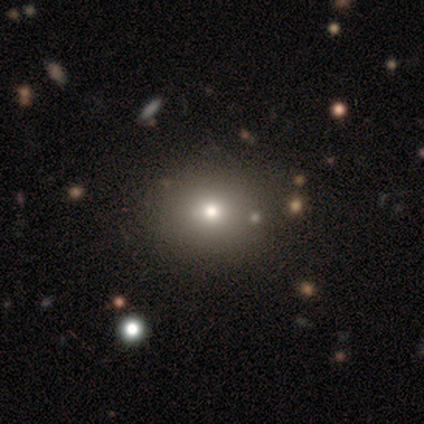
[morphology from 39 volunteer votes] Smooth or featured?
  - smooth: 74% *
  - star or artifact: 18%
  - featured or disk: 8%
How rounded?
  - round: 79% *
  - in between: 21%
  - cigar-shaped: 0%
Merging?
  - none: 62% *
  - minor disturbance: 3%
  - merger: 3%
  - major disturbance: 0%